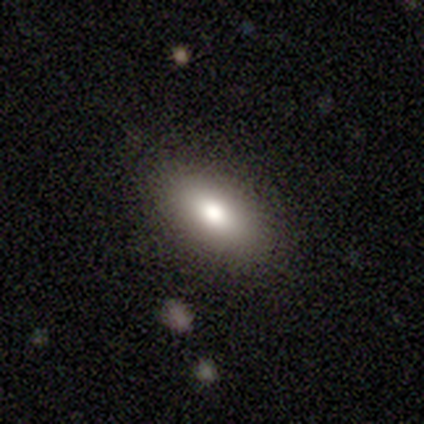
Smooth or featured? smooth (68%)
How rounded? in between (85%)
Merging? none (82%)